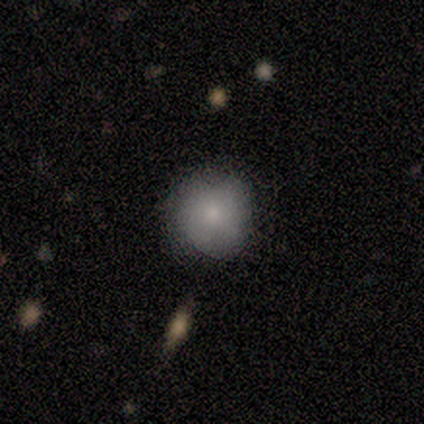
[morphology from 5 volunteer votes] smooth 80%, featured or disk 20%, star or artifact 0%. Down the decision tree: how rounded — round (100%); merging — none (100%).